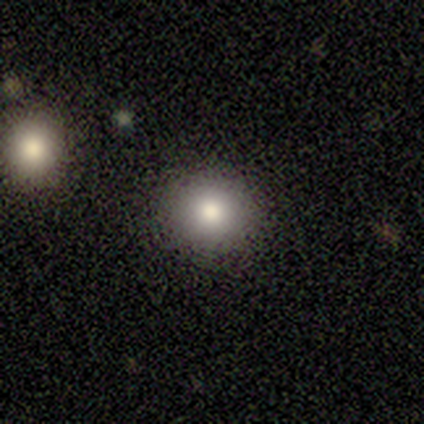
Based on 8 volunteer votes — Morphology: type=smooth (88%); roundness=round (100%); merging=none (100%).